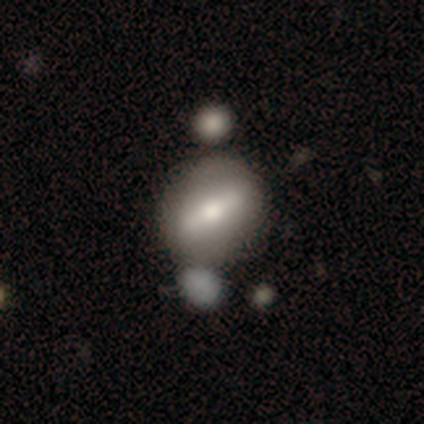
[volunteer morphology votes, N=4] This is possibly a smooth galaxy (50%). How rounded: clearly cigar-shaped (100%). Merging: likely none (67%).